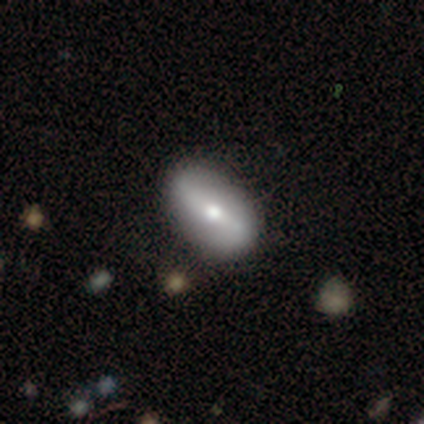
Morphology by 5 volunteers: smooth-or-featured: smooth: 80% | featured or disk: 20% | star or artifact: 0%
  how-rounded: in between: 100% | round: 0% | cigar-shaped: 0%
  merging: none: 60% | minor disturbance: 20% | major disturbance: 20% | merger: 0%